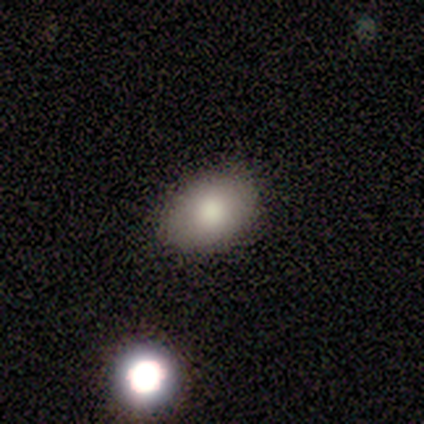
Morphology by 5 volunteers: smooth-or-featured: smooth: 80% | star or artifact: 20% | featured or disk: 0%
  how-rounded: in between: 100% | round: 0% | cigar-shaped: 0%
  merging: none: 100% | minor disturbance: 0% | major disturbance: 0% | merger: 0%